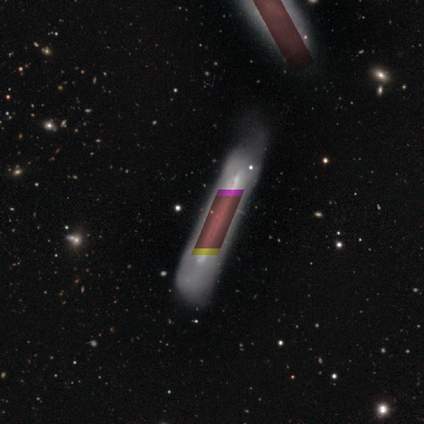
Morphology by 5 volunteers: This is likely a star or artifact rather than a galaxy (60%).